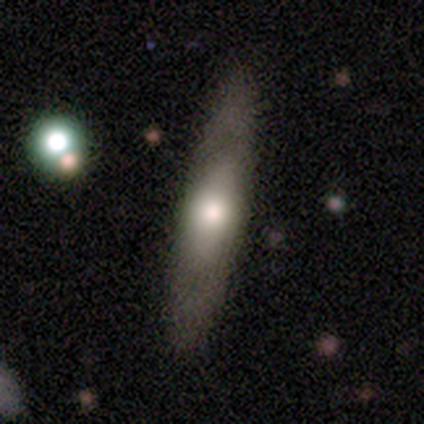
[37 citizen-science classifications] Smooth or featured: featured or disk — 49% (smooth — 46%)
Edge-on disk: yes — 83% (no — 17%)
Edge-on bulge: rounded — 80% (none — 13%)
Merging: none — 91% (minor disturbance — 6%)